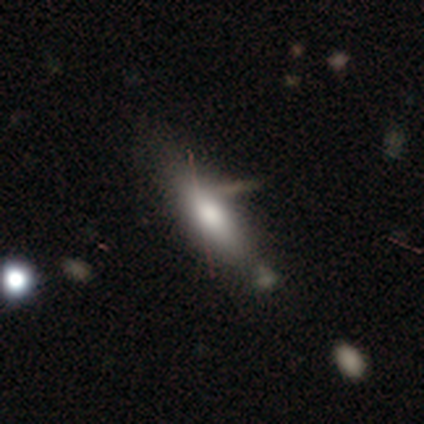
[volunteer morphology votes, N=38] This is likely a smooth galaxy (76%). How rounded: likely cigar-shaped (72%). Merging: likely none (69%).